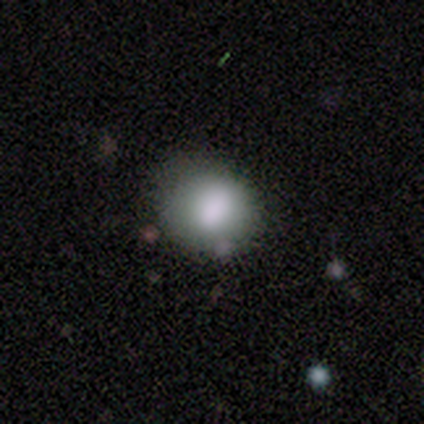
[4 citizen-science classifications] Smooth or featured?
  - smooth: 100% *
  - featured or disk: 0%
  - star or artifact: 0%
How rounded?
  - round: 75% *
  - in between: 25%
  - cigar-shaped: 0%
Merging?
  - none: 100% *
  - minor disturbance: 0%
  - major disturbance: 0%
  - merger: 0%